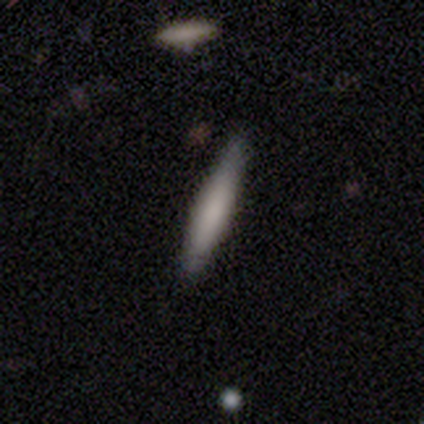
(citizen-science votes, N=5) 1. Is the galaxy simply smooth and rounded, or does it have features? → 80% smooth, 20% featured or disk, 0% star or artifact.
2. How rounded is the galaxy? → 75% cigar-shaped, 25% in between, 0% round.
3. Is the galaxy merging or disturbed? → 100% none, 0% minor disturbance, 0% major disturbance, 0% merger.